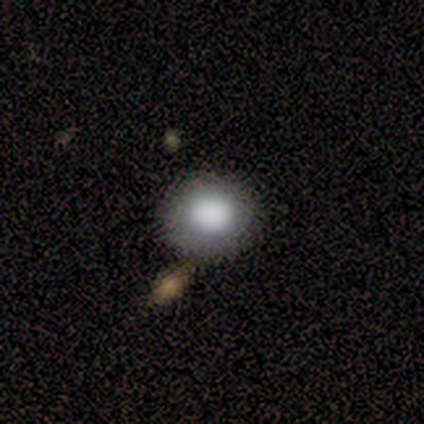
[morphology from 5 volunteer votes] A smooth galaxy with no disk features (100%) that is round (80%).

Vote fractions:
- Smooth or featured? smooth: 100% / featured or disk: 0% / star or artifact: 0%
- How rounded? round: 80% / in between: 20% / cigar-shaped: 0%
- Merging? minor disturbance: 60% / none: 40% / major disturbance: 0% / merger: 0%